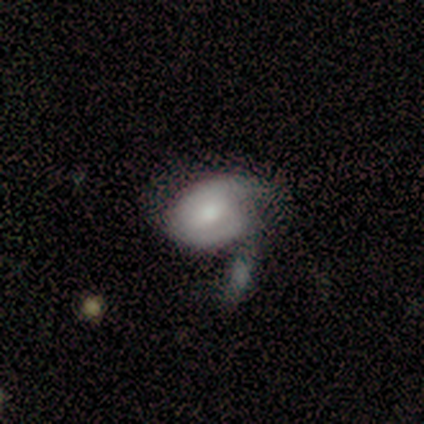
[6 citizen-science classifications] Volunteers were most divided on "merging": major disturbance: 50%, merger: 33%, minor disturbance: 17%, none: 0%. More confident: how rounded — in between (75%); smooth or featured — smooth (67%).